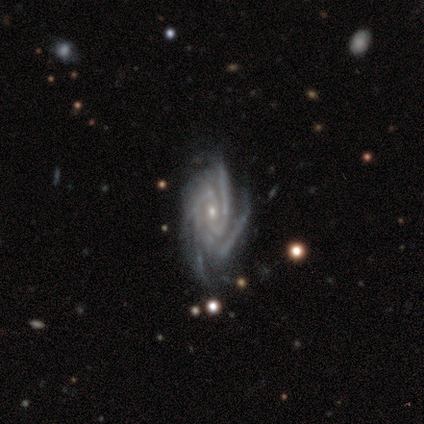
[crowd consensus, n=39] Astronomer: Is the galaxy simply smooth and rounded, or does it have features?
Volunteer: featured or disk — 97%.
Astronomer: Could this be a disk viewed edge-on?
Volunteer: no — 100%.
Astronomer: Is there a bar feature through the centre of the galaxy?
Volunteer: no — 74%.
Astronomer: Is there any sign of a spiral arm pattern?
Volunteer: yes — 100%.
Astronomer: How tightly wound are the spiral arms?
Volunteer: tight — 66%.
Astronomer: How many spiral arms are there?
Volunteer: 4 — 58% (runner-up: 3, 34%).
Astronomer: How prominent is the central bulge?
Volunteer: small — 82%.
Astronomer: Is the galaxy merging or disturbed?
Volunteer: none — 62%.